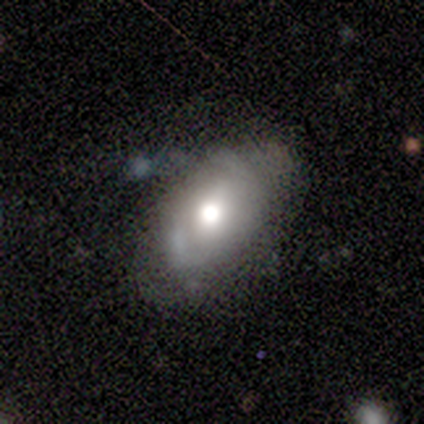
This is likely a featured or disk galaxy (75%). It is clearly not viewed edge-on (100%). Bar: likely no (67%). Spiral arm pattern: clearly yes (100%). Spiral arm count: marginally 1 (33%, tied with 2 and can't tell). Spiral winding: likely tight (67%). Central bulge: likely moderate (67%). Merging: likely none (75%).